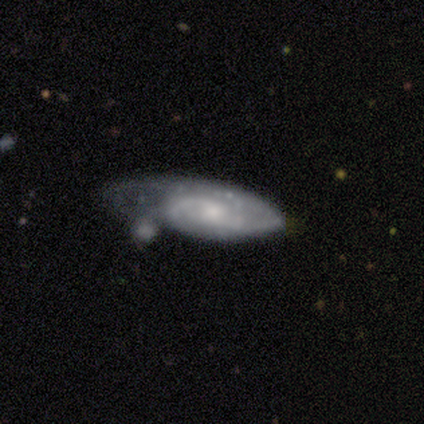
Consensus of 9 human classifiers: A featured or disk galaxy (67%) with a weak bar (50%), 2 (67%) medium (67%) spiral arms (100%) and a moderate central bulge (83%). Merging: major disturbance (50%).